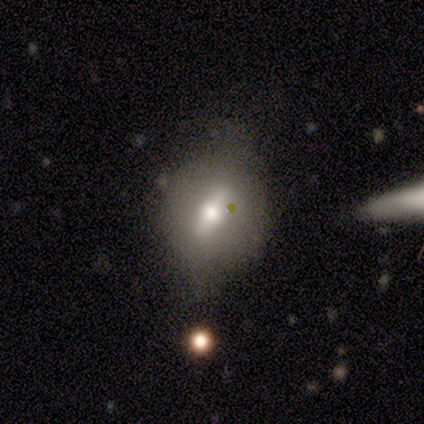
smooth-or-featured: featured or disk: 60% | smooth: 40% | star or artifact: 0%
  disk-edge-on: no: 67% | yes: 33%
    bar: strong: 100% | weak: 0% | no: 0%
    has-spiral-arms: no: 100% | yes: 0%
    bulge-size: moderate: 50% (tied) | small: 50% (tied) | dominant: 0% | large: 0% | none: 0%
  merging: none: 40% (tied) | minor disturbance: 40% (tied) | major disturbance: 20% | merger: 0%